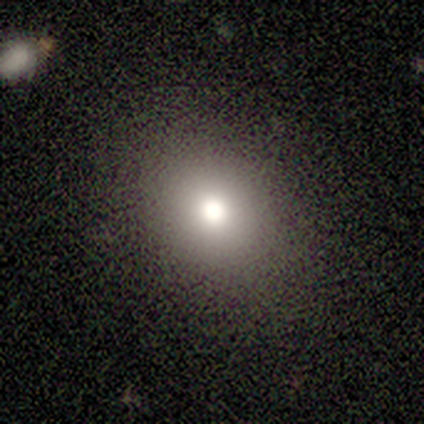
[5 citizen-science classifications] Q: Smooth or featured?
A: smooth (60%); runner-up: featured or disk (20%)
Q: How rounded?
A: in between (67%); runner-up: round (33%)
Q: Merging?
A: none (75%); runner-up: minor disturbance (25%)